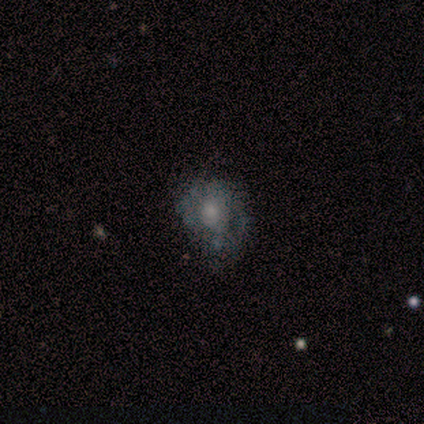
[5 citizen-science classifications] This is likely a featured or disk galaxy (60%). It is clearly not viewed edge-on (100%). Bar: clearly no (100%). Spiral arm pattern: likely no (67%). Central bulge: likely small (67%). Merging: likely none (67%).